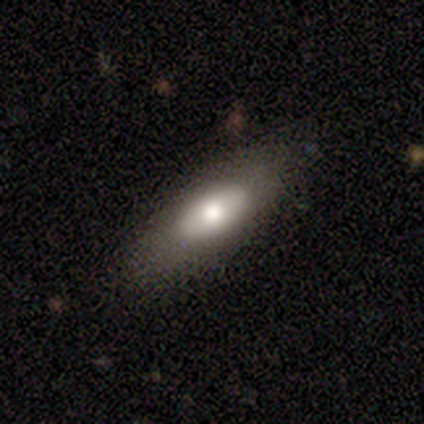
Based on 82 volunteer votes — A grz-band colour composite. It shows a smooth galaxy with no disk features (73%) that is in between round and cigar-shaped (67%). Merging: none (84%).